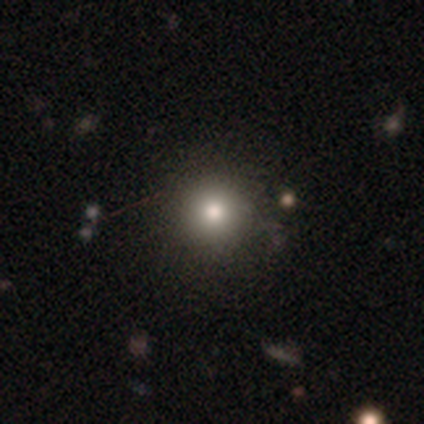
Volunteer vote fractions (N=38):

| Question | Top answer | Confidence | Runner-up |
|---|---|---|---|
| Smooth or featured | smooth | 76% | featured or disk (21%) |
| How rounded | round | 100% | — |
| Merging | none | 65% | minor disturbance (3%) |